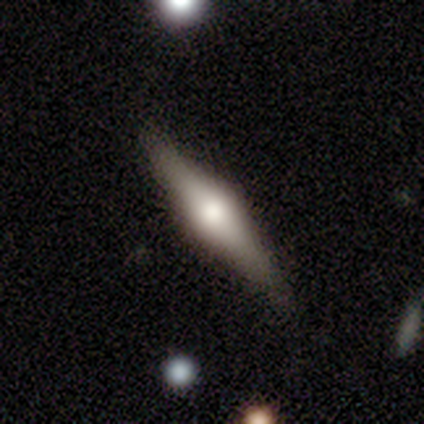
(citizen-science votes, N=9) A featured or disk galaxy (67%) viewed edge-on (83%) with a rounded central bulge (100%).

Vote fractions:
- Smooth or featured? featured or disk: 67% / smooth: 22% / star or artifact: 11%
- Edge-on disk? yes: 83% / no: 17%
- Edge-on bulge? rounded: 100% / boxy: 0% / none: 0%
- Merging? none: 100% / minor disturbance: 0% / major disturbance: 0% / merger: 0%